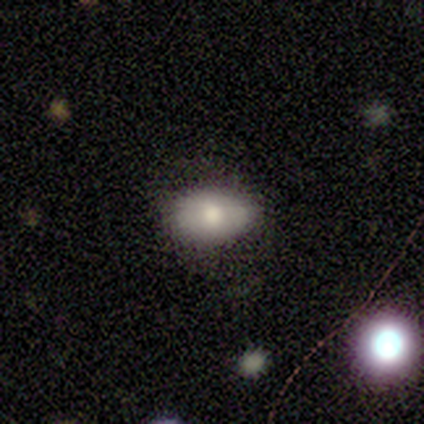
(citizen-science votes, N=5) This appears to be a smooth galaxy with no disk features (60%) that is in between round and cigar-shaped (100%). Merging: none (80%).